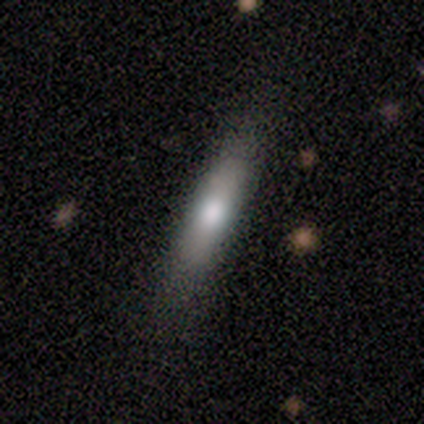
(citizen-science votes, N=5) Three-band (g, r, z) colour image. It shows a smooth galaxy with no disk features (80%) that is in between round and cigar-shaped (50%, tied with cigar-shaped). Merging: none (80%).